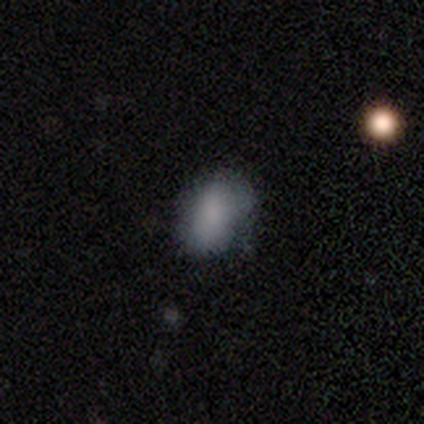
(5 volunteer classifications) Smooth or featured? smooth (100%)
How rounded? in between (100%)
Merging? minor disturbance (80%)